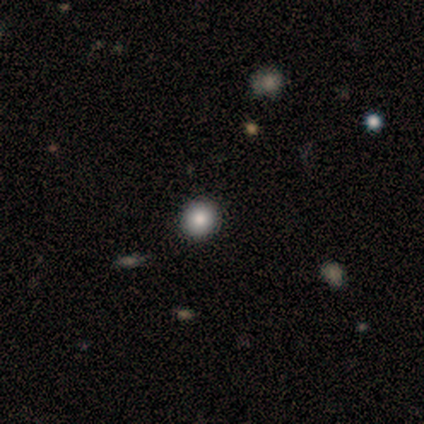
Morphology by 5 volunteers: This appears to be a smooth galaxy with no disk features (80%) that is round (100%). Merging: none (100%).